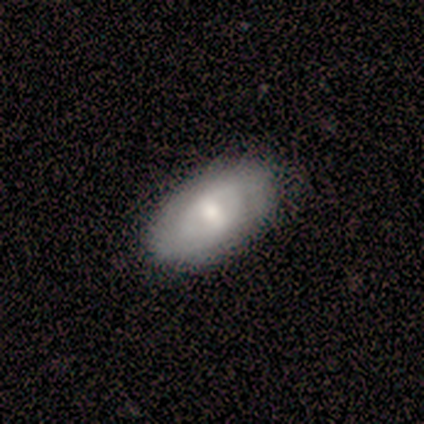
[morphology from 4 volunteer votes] This is possibly a featured or disk galaxy (50%). It is clearly not viewed edge-on (100%). Bar: clearly no (100%). Spiral arm pattern: possibly yes (50%, tied with no). Spiral arm count: clearly 2 (100%). Spiral winding: clearly tight (100%). Central bulge: possibly large (50%, tied with moderate). Merging: clearly none (100%).